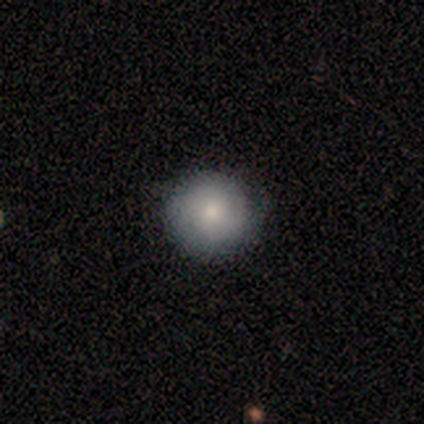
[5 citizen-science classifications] A smooth galaxy with no disk features (100%) that is round (100%).

Vote fractions:
- Smooth or featured? smooth: 100% / featured or disk: 0% / star or artifact: 0%
- How rounded? round: 100% / in between: 0% / cigar-shaped: 0%
- Merging? none: 100% / minor disturbance: 0% / major disturbance: 0% / merger: 0%